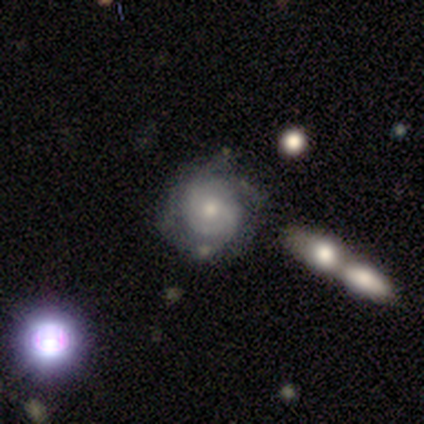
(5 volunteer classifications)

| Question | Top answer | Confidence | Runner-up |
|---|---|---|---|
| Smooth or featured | featured or disk | 80% | smooth (20%) |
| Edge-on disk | no | 100% | — |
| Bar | no | 100% | — |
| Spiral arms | yes | 100% | — |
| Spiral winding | tight | 75% | medium (25%) |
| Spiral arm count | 2 | 25% | tied: 3 (25%), more than 4 (25%), can't tell (25%) |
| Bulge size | moderate | 75% | small (25%) |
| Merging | none | 60% | minor disturbance (20%) |